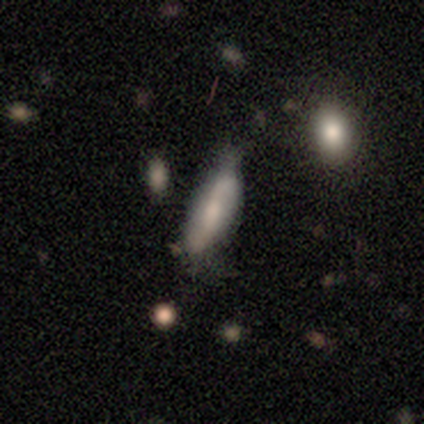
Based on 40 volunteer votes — Smooth or featured? 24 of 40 (60%) said smooth. How rounded? 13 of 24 (54%) said in between. Merging? 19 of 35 (54%) said none.